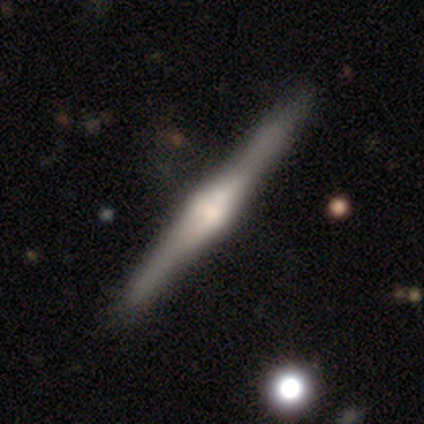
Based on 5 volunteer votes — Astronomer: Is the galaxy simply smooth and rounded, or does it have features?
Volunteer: featured or disk — 100%.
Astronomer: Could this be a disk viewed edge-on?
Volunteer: yes — 100%.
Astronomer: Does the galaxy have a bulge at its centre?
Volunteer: rounded — 100%.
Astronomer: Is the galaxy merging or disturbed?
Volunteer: none — 100%.